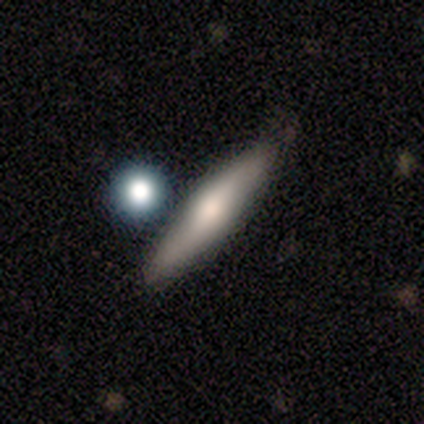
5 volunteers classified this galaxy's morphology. Overall: smooth (60%; featured or disk 40%). How rounded: cigar-shaped (67%; in between 33%). Merging: none (80%).